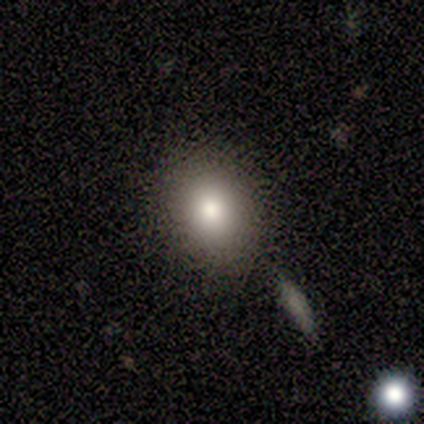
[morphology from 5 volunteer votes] smooth_or_featured: smooth (p=0.80) [alt: featured or disk p=0.20]
how_rounded: round (p=0.50) [tied with: in between p=0.50]
merging: none (p=1.00)